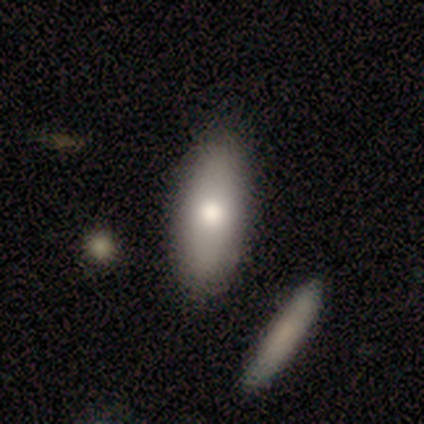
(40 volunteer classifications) Smooth or featured? smooth (88%)
How rounded? in between (77%)
Merging? none (79%)